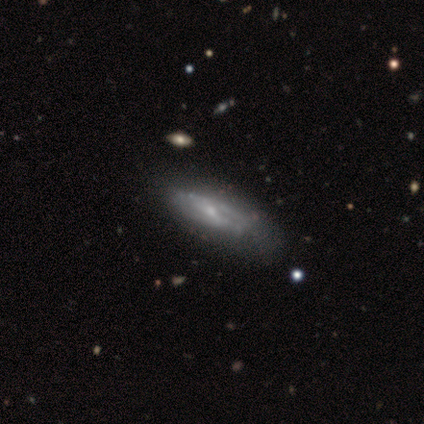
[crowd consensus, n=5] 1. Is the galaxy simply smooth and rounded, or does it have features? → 80% featured or disk, 20% smooth, 0% star or artifact.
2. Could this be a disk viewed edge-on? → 100% no, 0% yes.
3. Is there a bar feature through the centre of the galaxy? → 50% weak (tied), 50% no (tied), 0% strong.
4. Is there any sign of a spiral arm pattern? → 50% yes (tied), 50% no (tied).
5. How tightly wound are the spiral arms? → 50% tight (tied), 50% loose (tied), 0% medium.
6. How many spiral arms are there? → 100% 2, 0% 1, 0% 3, 0% 4, 0% more than 4, 0% can't tell.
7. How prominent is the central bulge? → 100% small, 0% dominant, 0% large, 0% moderate, 0% none.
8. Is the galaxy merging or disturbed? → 60% none, 40% minor disturbance, 0% major disturbance, 0% merger.